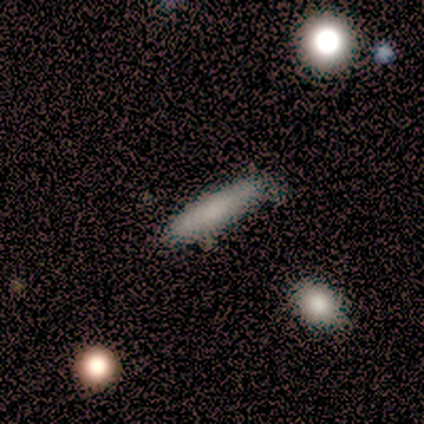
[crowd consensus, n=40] Smooth or featured?
  - smooth: 65% *
  - featured or disk: 30%
  - star or artifact: 5%
How rounded?
  - cigar-shaped: 73% *
  - in between: 19%
  - round: 8%
Merging?
  - none: 53% *
  - minor disturbance: 13%
  - major disturbance: 0%
  - merger: 0%